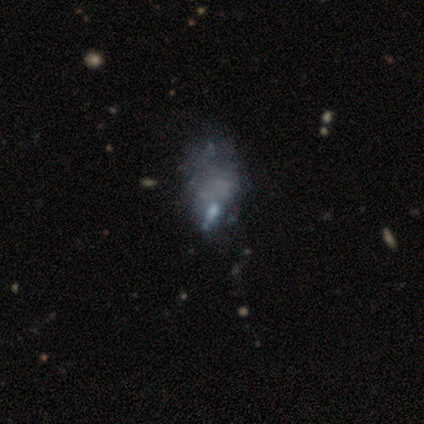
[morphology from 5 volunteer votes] Smooth or featured?
  - star or artifact: 60% *
  - featured or disk: 40%
  - smooth: 0%